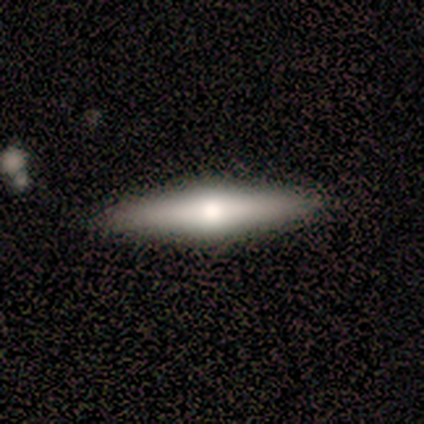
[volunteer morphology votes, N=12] featured or disk 58%, smooth 42%, star or artifact 0%. Down the decision tree: edge-on disk — yes (100%); edge-on bulge — rounded (86%); merging — none (92%).